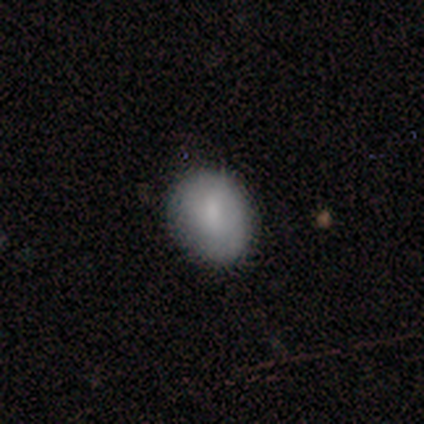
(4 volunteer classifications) Overall: smooth (100%). How rounded: in between (75%). Merging: none (50%, tied with minor disturbance).